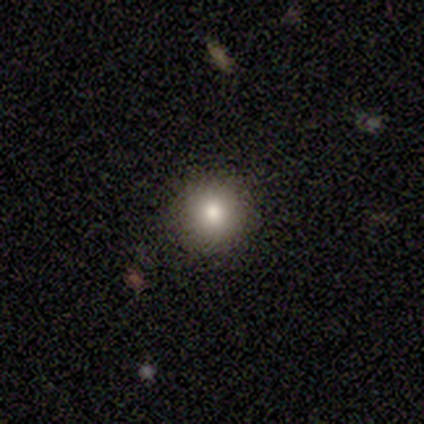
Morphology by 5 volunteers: type=smooth (100%); roundness=round (100%); merging=none (100%).